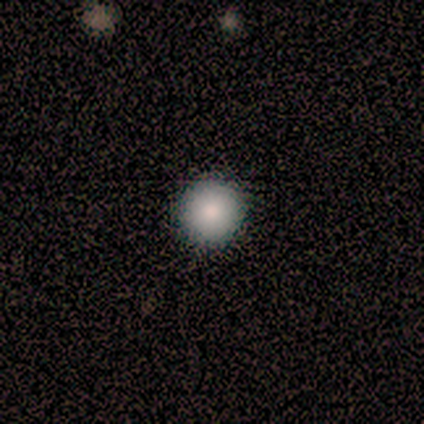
This is clearly a smooth galaxy (80%). How rounded: clearly round (100%). Merging: clearly none (100%).